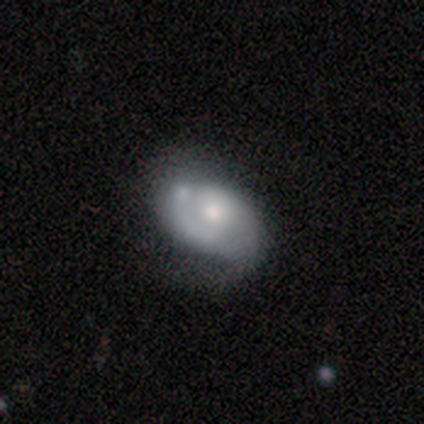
This appears to be a featured or disk galaxy (80%) with no bar (75%), 1 (33%, tied with 2 and can't tell) tight (67%) spiral arms (75%) and a moderate central bulge (50%). Merging: none (40%, tied with minor disturbance).